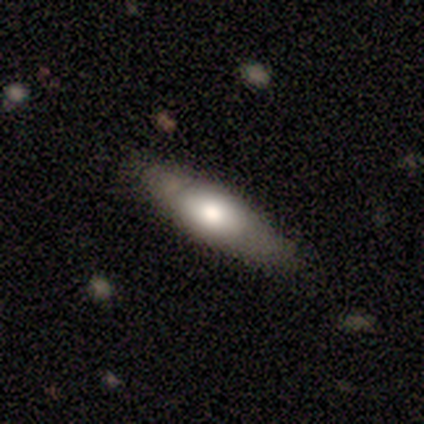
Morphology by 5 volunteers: A featured or disk galaxy (60%) viewed edge-on (67%) with a rounded central bulge (100%). Merging: none (80%).